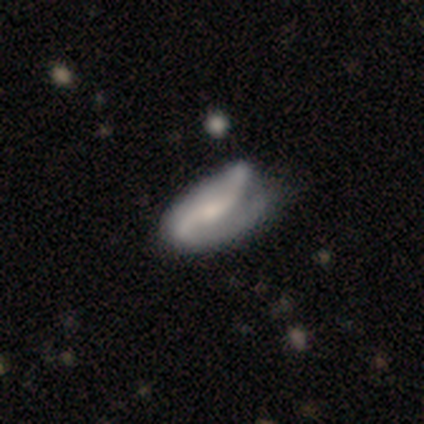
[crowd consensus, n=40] This appears to be a featured or disk galaxy (92%) with a weak bar (41%), 2 (74%) loose (45%) spiral arms (84%) and a moderate central bulge (35%). Merging: none (38%).